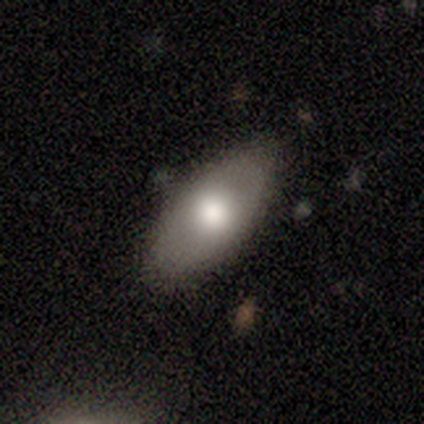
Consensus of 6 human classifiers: Q: Smooth or featured?
A: smooth (83%); runner-up: featured or disk (17%)
Q: How rounded?
A: in between (100%)
Q: Merging?
A: none (100%)